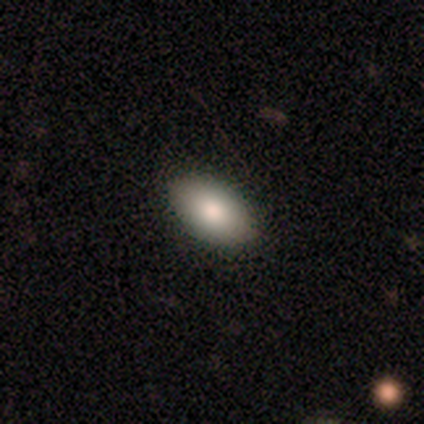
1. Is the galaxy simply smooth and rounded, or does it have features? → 72% smooth, 18% featured or disk, 10% star or artifact.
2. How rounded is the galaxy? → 93% in between, 4% round, 4% cigar-shaped.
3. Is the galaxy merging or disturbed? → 94% none, 6% minor disturbance, 0% major disturbance, 0% merger.